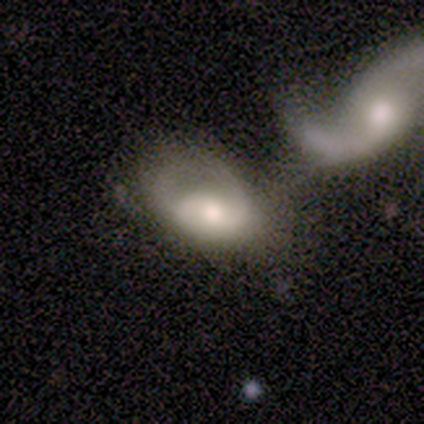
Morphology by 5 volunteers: This is likely a featured or disk galaxy (60%). It is clearly not viewed edge-on (100%). Bar: likely no (67%). Spiral arm pattern: likely yes (67%). Spiral arm count: possibly 1 (50%, tied with can't tell). Spiral winding: possibly tight (50%, tied with loose). Central bulge: likely moderate (67%). Merging: likely merger (60%).